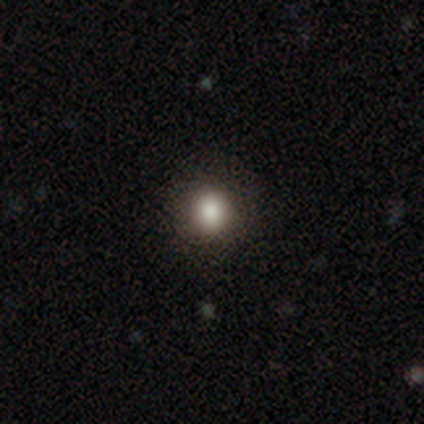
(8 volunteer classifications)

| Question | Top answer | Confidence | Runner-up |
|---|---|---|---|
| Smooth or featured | smooth | 88% | featured or disk (12%) |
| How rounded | round | 86% | in between (14%) |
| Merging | none | 100% | — |